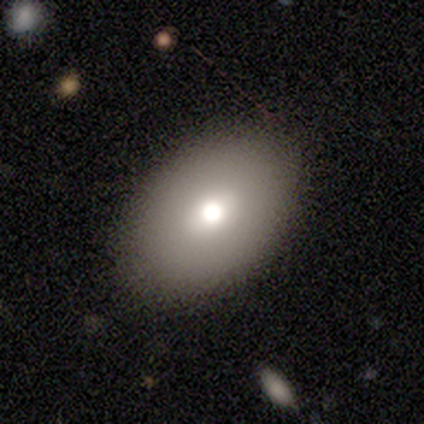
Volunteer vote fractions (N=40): smooth_or_featured: smooth (p=0.78) [alt: featured or disk p=0.17]
how_rounded: in between (p=0.94) [alt: round p=0.06]
merging: none (p=0.71)